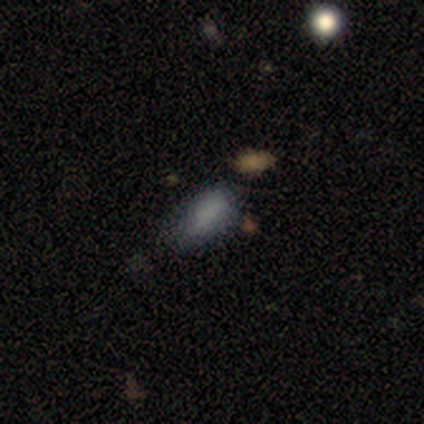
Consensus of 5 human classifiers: A smooth galaxy with no disk features (80%) that is in between round and cigar-shaped (100%). Merging: none (100%).